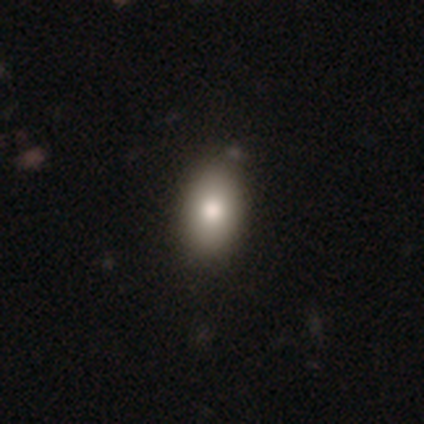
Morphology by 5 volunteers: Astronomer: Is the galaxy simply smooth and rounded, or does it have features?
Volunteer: smooth — 100%.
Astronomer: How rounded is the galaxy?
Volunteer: in between — 80%.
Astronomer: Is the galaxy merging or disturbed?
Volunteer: none — 100%.